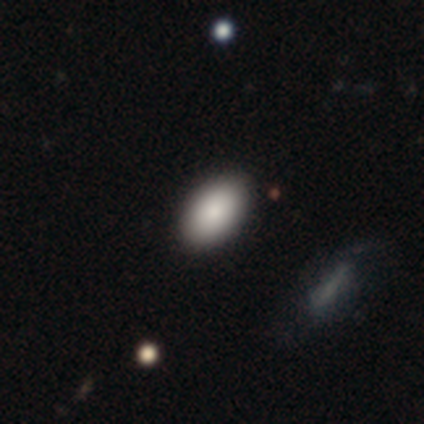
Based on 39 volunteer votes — A smooth galaxy with no disk features (87%) that is in between round and cigar-shaped (91%).

Vote fractions:
- Smooth or featured? smooth: 87% / featured or disk: 8% / star or artifact: 5%
- How rounded? in between: 91% / round: 9% / cigar-shaped: 0%
- Merging? none: 97% / major disturbance: 3% / minor disturbance: 0% / merger: 0%